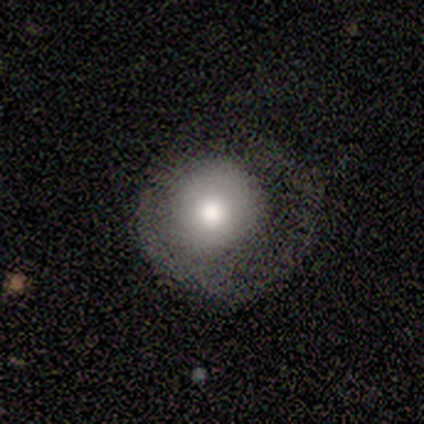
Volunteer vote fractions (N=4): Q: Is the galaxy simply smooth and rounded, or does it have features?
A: smooth — 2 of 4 (50%).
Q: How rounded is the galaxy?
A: round — 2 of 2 (100%).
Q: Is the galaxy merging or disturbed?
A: major disturbance — 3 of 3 (100%).